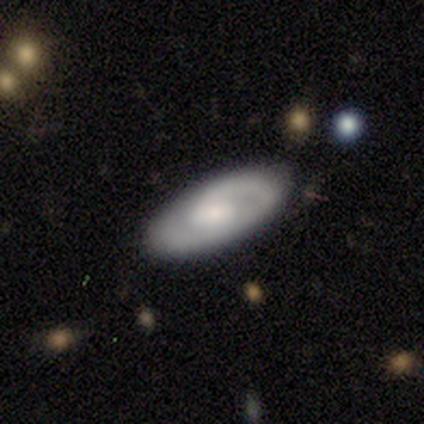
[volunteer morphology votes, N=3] This is likely a featured or disk galaxy (67%). It is clearly not viewed edge-on (100%). Bar: clearly no (100%). Spiral arm pattern: clearly yes (100%). Spiral arm count: possibly 1 (50%, tied with 2). Spiral winding: clearly tight (100%). Central bulge: possibly moderate (50%, tied with small). Merging: likely none (67%).